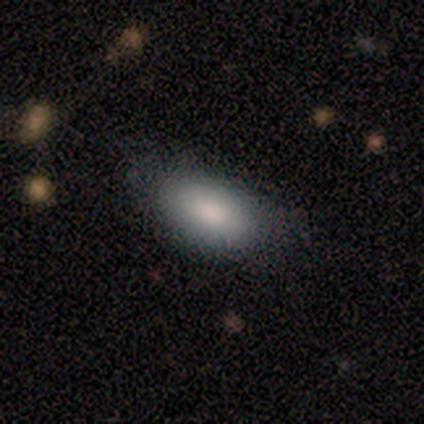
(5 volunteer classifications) A smooth galaxy with no disk features (80%) that is in between round and cigar-shaped (100%). Merging: none (40%, tied with minor disturbance).